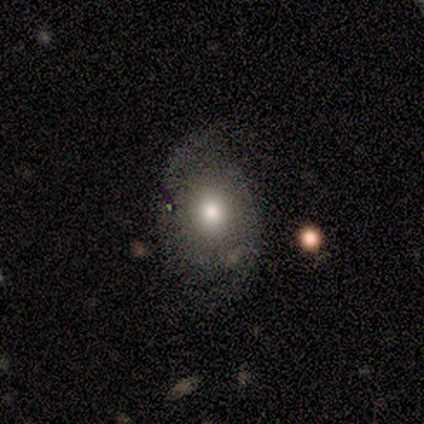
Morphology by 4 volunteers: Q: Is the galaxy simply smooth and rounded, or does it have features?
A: smooth — 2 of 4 (50%).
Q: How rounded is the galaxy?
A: in between — 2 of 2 (100%).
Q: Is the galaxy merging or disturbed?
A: none — 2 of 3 (67%).